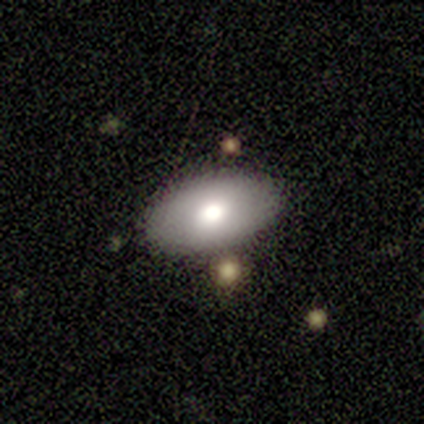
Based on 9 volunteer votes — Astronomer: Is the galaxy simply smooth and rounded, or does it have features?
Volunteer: smooth — 56%.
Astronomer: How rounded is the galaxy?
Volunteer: in between — 100%.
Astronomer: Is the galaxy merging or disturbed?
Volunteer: none — 100%.